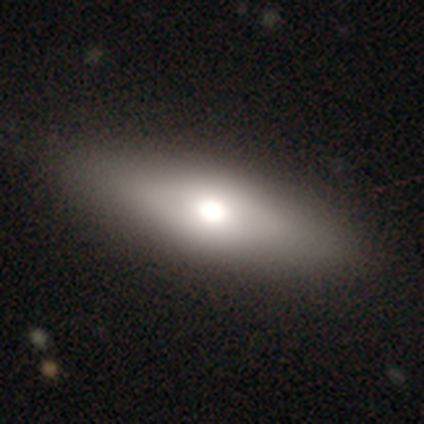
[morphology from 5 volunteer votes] Overall: featured or disk (60%; smooth 40%). Edge-on disk: no (67%; yes 33%). Bar: no (100%). Spiral arms: yes (50%, tied with no). Spiral arm count: can't tell (100%). Spiral winding: tight (100%). Bulge size: moderate (100%). Merging: none (100%).